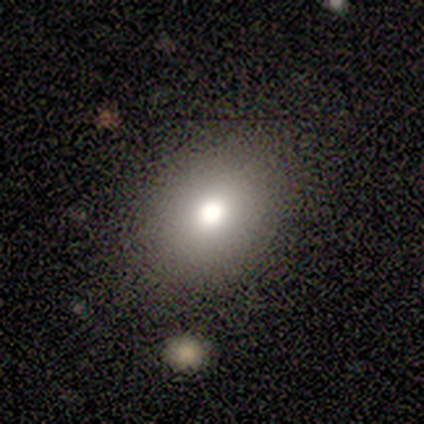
smooth 83%, featured or disk 8%, star or artifact 8%. Down the decision tree: how rounded — round (53%); merging — none (85%).